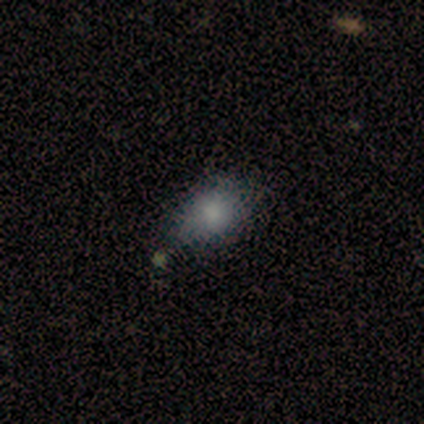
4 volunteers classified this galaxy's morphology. This appears to be a smooth galaxy with no disk features (75%) that is round (67%). Merging: none (75%).